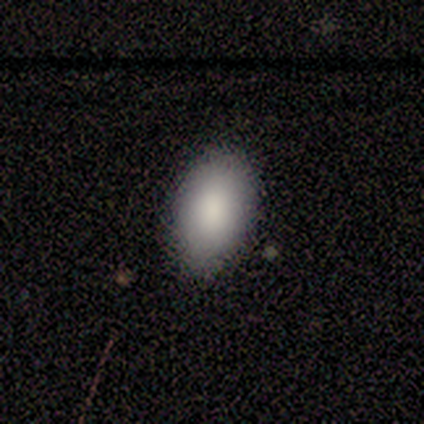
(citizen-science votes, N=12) Overall: smooth (75%). How rounded: in between (100%). Merging: none (83%).